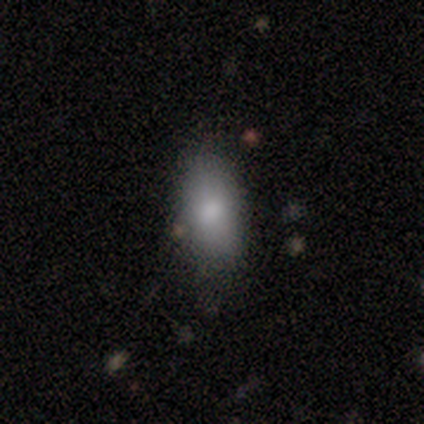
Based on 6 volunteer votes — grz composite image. It shows a smooth galaxy with no disk features (67%) that is in between round and cigar-shaped (75%). Merging: none (80%).